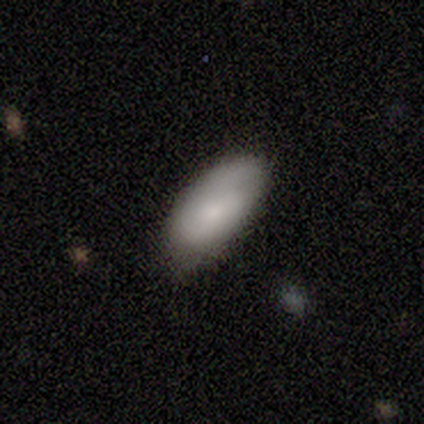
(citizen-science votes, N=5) Overall: smooth (80%). How rounded: in between (100%). Merging: none (100%).